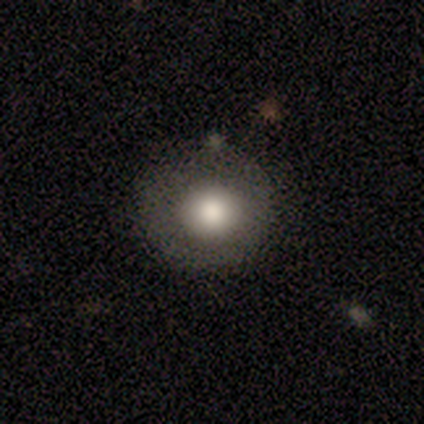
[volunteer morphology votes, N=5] smooth 80%, star or artifact 20%, featured or disk 0%. Down the decision tree: how rounded — round (100%); merging — none (75%).